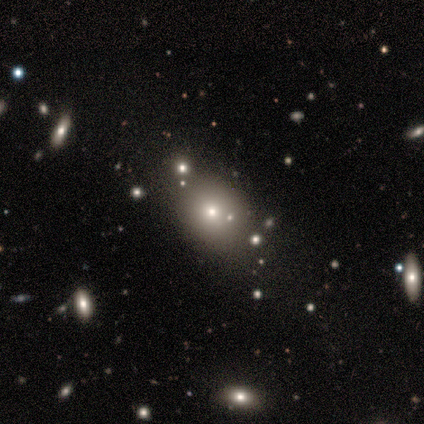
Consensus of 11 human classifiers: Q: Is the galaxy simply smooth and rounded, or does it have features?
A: smooth — 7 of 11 (64%).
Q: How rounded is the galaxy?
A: round — 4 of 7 (57%).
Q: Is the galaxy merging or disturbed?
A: merger — 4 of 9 (44%).